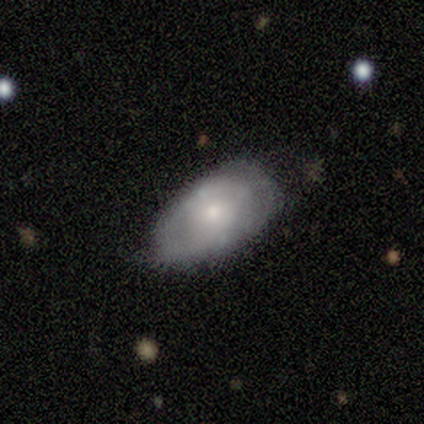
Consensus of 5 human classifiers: Q: Smooth or featured?
A: featured or disk (60%); runner-up: smooth (20%)
Q: Edge-on disk?
A: no (100%)
Q: Bar?
A: no (67%); runner-up: strong (33%)
Q: Spiral arms?
A: yes (67%); runner-up: no (33%)
Q: Spiral winding?
A: tight (100%)
Q: Spiral arm count?
A: can't tell (100%)
Q: Bulge size?
A: moderate (67%); runner-up: small (33%)
Q: Merging?
A: none (50%); tied with: minor disturbance (50%)